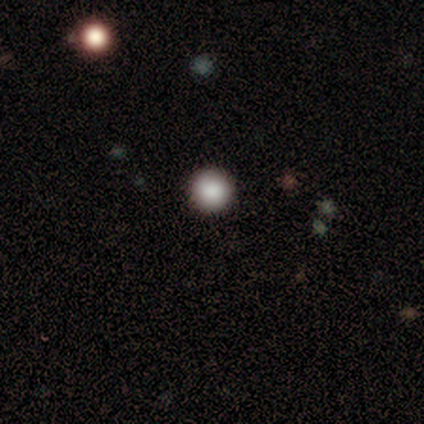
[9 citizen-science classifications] Q: Smooth or featured?
A: smooth (78%); runner-up: featured or disk (11%)
Q: How rounded?
A: round (100%)
Q: Merging?
A: none (88%); runner-up: major disturbance (12%)